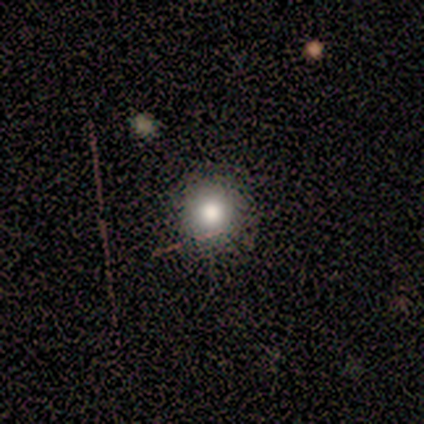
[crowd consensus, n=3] Q: Smooth or featured?
A: smooth (100%)
Q: How rounded?
A: round (100%)
Q: Merging?
A: none (67%); runner-up: minor disturbance (33%)